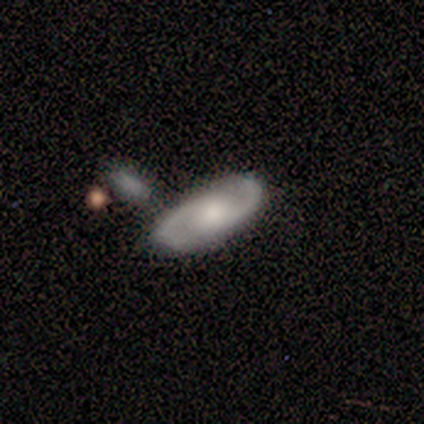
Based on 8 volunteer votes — This appears to be a featured or disk galaxy (62%) with no bar (60%), 2 (80%) medium (100%) spiral arms (100%) and a large central bulge (40%). Merging: none (62%).